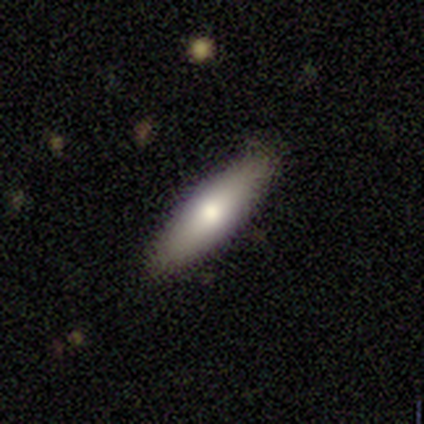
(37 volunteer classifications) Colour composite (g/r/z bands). It shows a smooth galaxy with no disk features (46%) that is cigar-shaped (65%). Merging: none (94%).